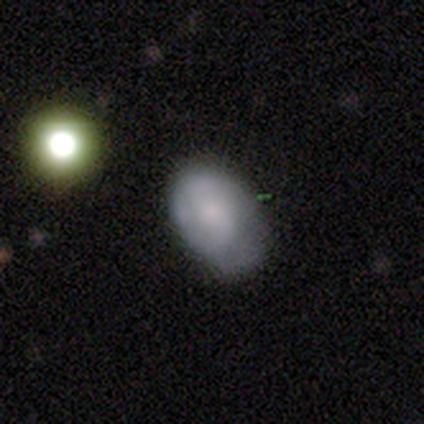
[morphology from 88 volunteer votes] A smooth galaxy with no disk features (62%) that is in between round and cigar-shaped (89%). Merging: none (55%).